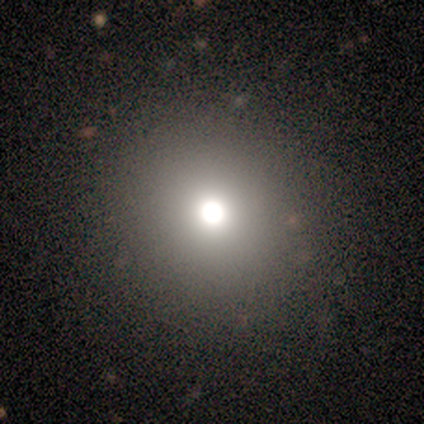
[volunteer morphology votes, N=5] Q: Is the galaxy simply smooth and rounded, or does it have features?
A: smooth — 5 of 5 (100%).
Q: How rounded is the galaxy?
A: round — 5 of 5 (100%).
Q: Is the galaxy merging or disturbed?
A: none — 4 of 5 (80%).